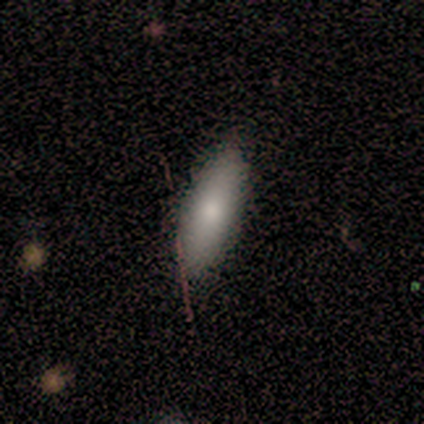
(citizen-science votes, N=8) Volunteers were most divided on "how rounded": in between: 62%, cigar-shaped: 38%, round: 0%. More confident: smooth or featured — smooth (100%); merging — none (88%).